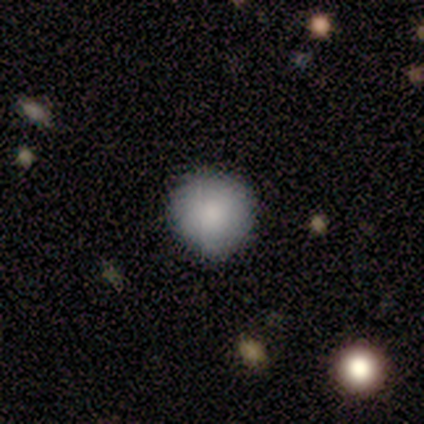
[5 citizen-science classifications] This is clearly a smooth galaxy (80%). How rounded: clearly round (100%). Merging: clearly none (100%).